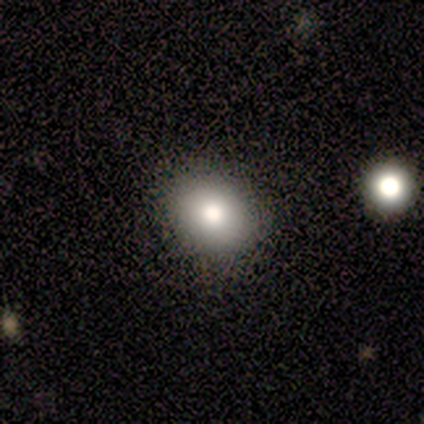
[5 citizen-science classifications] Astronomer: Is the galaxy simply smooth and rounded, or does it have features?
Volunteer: smooth — 60% (runner-up: featured or disk, 40%).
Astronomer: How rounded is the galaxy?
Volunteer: in between — 67%.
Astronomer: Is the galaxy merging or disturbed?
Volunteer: none — 100%.